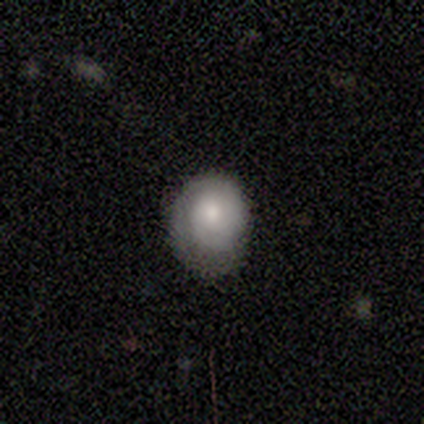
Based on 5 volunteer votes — smooth_or_featured: smooth (p=1.00)
how_rounded: round (p=0.60) [alt: in between p=0.40]
merging: minor disturbance (p=1.00)